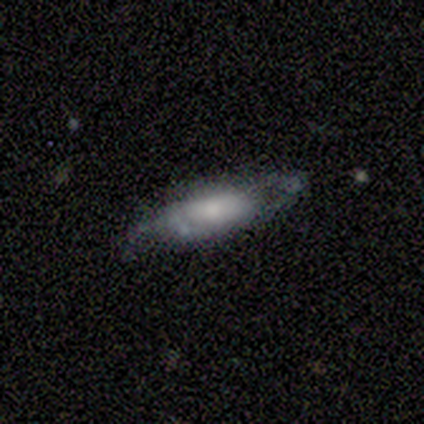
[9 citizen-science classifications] Morphology: type=smooth (56%); roundness=in between (100%); merging=none (33%, tied with minor disturbance).